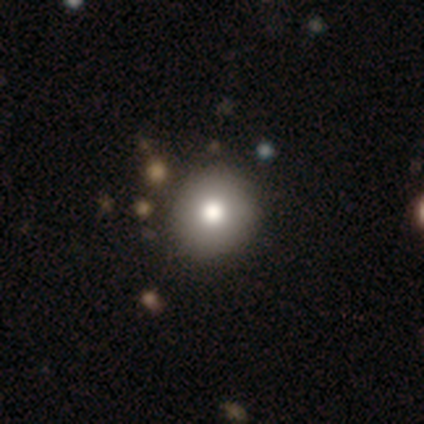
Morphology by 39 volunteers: This appears to be a smooth galaxy with no disk features (85%) that is round (85%). Merging: none (75%).